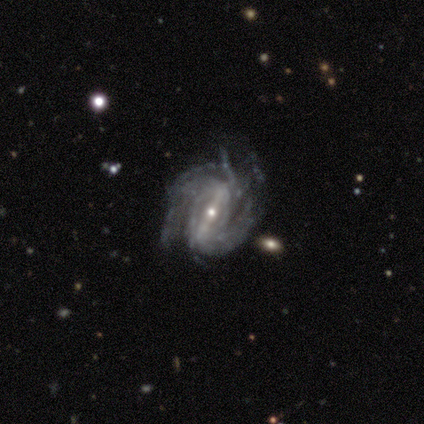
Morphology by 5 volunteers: smooth_or_featured: featured or disk (p=1.00)
disk_edge_on: no (p=1.00)
bar: strong (p=0.60) [alt: weak p=0.40]
has_spiral_arms: yes (p=1.00)
spiral_winding: tight (p=0.80) [alt: medium p=0.20]
spiral_arm_count: 2 (p=0.40) [tied with: can't tell p=0.40]
bulge_size: small (p=1.00)
merging: none (p=0.60) [alt: minor disturbance p=0.20]